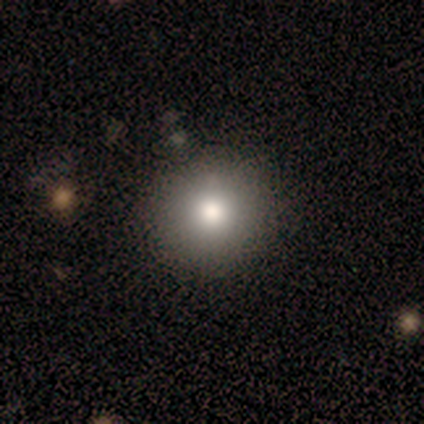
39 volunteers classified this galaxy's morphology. Overall: smooth (79%). How rounded: round (94%). Merging: none (89%).